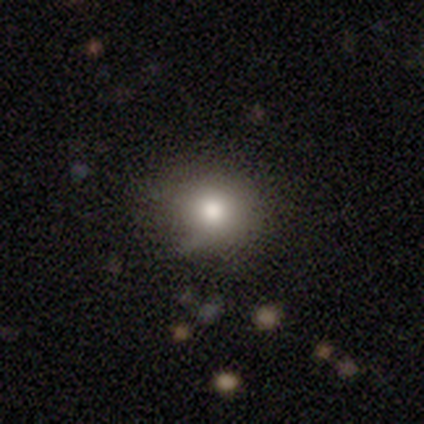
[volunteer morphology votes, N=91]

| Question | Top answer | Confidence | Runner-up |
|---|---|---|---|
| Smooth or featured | smooth | 81% | star or artifact (11%) |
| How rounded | round | 91% | in between (9%) |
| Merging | none | 77% | minor disturbance (17%) |